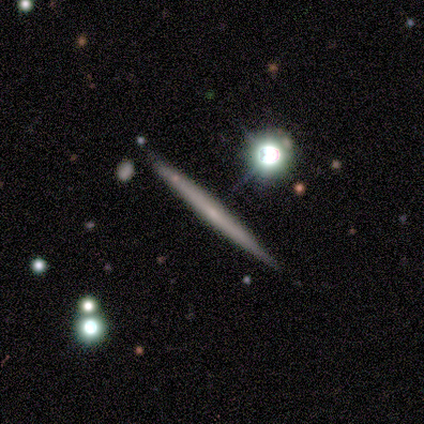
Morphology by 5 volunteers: Smooth or featured? 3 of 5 (60%) said featured or disk. Edge-on disk? 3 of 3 (100%) said yes. Edge-on bulge? 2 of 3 (67%) said none. Merging? 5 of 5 (100%) said none.